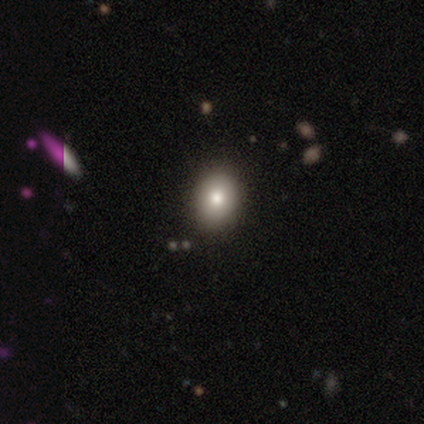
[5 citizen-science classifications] smooth_or_featured: smooth (p=0.60) [alt: star or artifact p=0.40]
how_rounded: in between (p=0.67) [alt: round p=0.33]
merging: none (p=1.00)